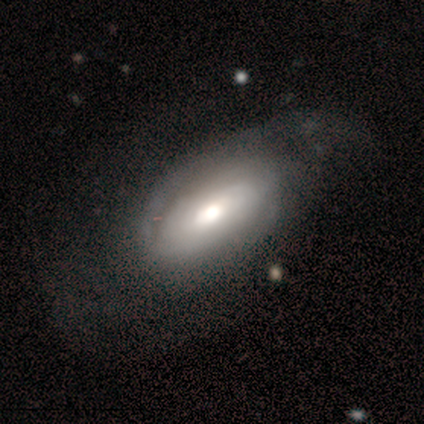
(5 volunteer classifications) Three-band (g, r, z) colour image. It shows a featured or disk galaxy (60%) with no bar (67%), tight (100%) spiral arms (100%) and a moderate central bulge (100%). Merging: none (75%).